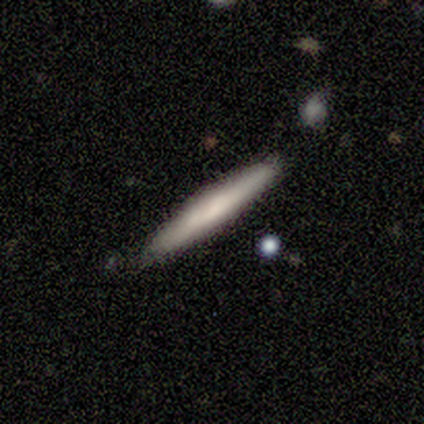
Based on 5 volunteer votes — This appears to be a featured or disk galaxy (60%) viewed edge-on (100%) with a rounded central bulge (67%). Merging: none (100%).